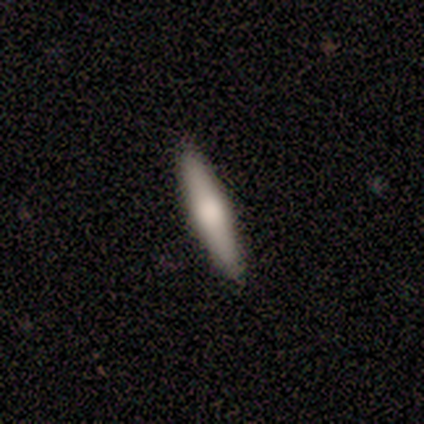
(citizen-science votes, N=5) smooth 80%, featured or disk 20%, star or artifact 0%. Down the decision tree: how rounded — cigar-shaped (75%); merging — none (100%).